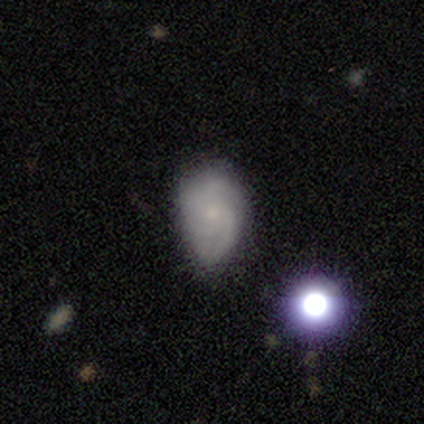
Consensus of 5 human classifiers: Smooth or featured? 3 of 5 (60%) said featured or disk. Edge-on disk? 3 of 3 (100%) said no. Bar? 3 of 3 (100%) said no. Spiral arms? 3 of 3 (100%) said yes. Spiral winding? 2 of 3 (67%) said tight. Spiral arm count? 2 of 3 (67%) said 3. Bulge size? 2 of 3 (67%) said small. Merging? 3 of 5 (60%) said minor disturbance.